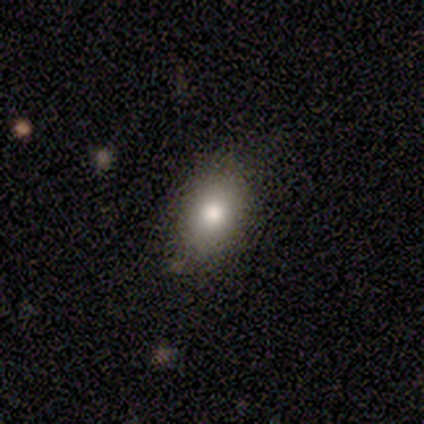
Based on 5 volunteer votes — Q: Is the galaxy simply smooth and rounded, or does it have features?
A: smooth — 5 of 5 (100%).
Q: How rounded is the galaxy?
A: in between — 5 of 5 (100%).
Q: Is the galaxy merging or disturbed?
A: none — 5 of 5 (100%).